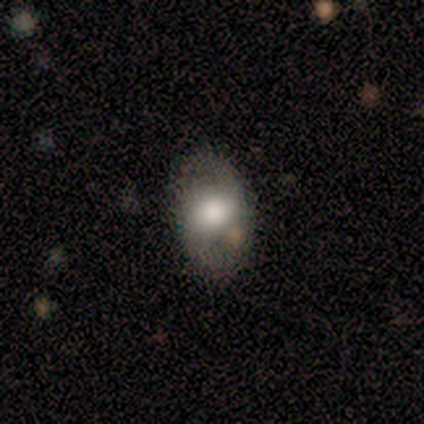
Smooth or featured: featured or disk — 60% (smooth — 40%)
Edge-on disk: no — 100%
Bar: no — 100%
Spiral arms: yes — 67% (no — 33%)
Spiral winding: tight — 50% (tied with medium — 50%)
Spiral arm count: 2 — 100%
Bulge size: moderate — 67% (large — 33%)
Merging: none — 100%